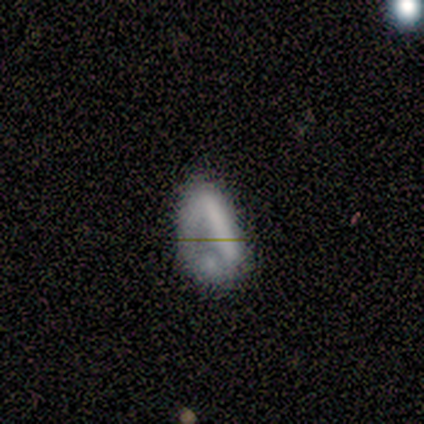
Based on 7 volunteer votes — Smooth or featured? 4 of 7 (57%) said smooth. How rounded? 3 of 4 (75%) said in between. Merging? 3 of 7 (43%) said none.